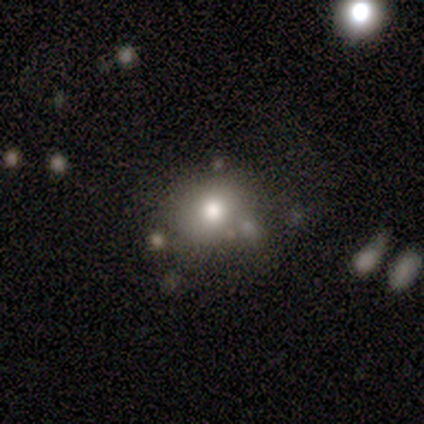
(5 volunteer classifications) Q: Smooth or featured?
A: smooth (100%)
Q: How rounded?
A: round (60%); runner-up: in between (40%)
Q: Merging?
A: none (40%); runner-up: minor disturbance (20%)